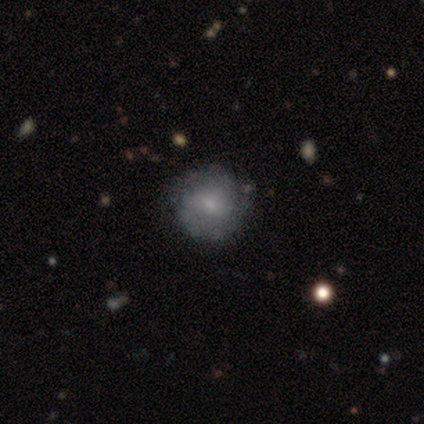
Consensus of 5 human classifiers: Morphology: type=featured or disk (80%); edge-on=no (100%); bar=no (75%); spiral arms=yes (50%, tied with no); winding=tight (100%); arm count=2 (100%); bulge=small (75%); merging=none (80%).